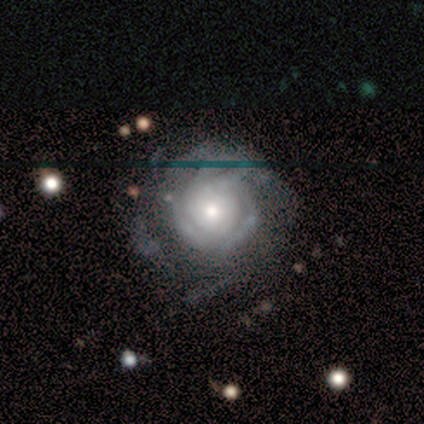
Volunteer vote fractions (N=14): featured or disk 93%, star or artifact 7%, smooth 0%. Down the decision tree: edge-on disk — no (100%); bar — no (77%); spiral arms — yes (92%); spiral arm count — can't tell (75%); spiral winding — tight (67%); bulge size — moderate (54%); merging — none (54%).